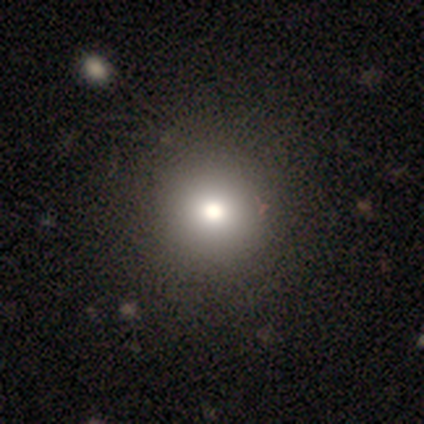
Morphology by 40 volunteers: smooth_or_featured: smooth (p=0.85) [alt: star or artifact p=0.10]
how_rounded: round (p=0.97) [alt: in between p=0.03]
merging: none (p=0.56) [alt: minor disturbance p=0.06]